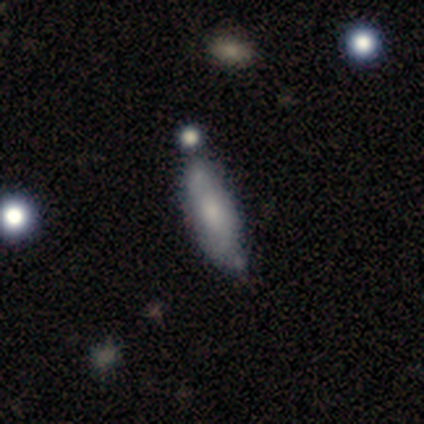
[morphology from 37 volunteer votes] Volunteers were most divided on "merging": none: 44%, minor disturbance: 34%, major disturbance: 12%, merger: 9%. More confident: how rounded — cigar-shaped (65%); smooth or featured — smooth (54%).